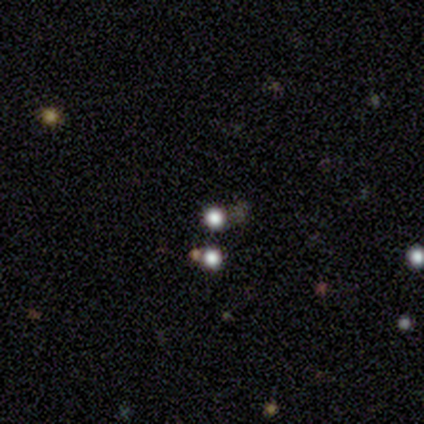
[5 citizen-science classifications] smooth 100%, featured or disk 0%, star or artifact 0%. Down the decision tree: how rounded — round (100%); merging — none (80%).